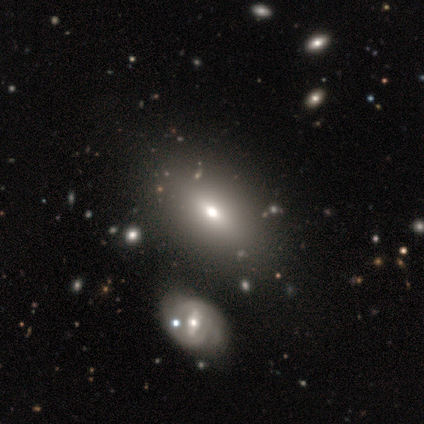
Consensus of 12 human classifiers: Volunteers were most divided on "smooth or featured": smooth: 67%, featured or disk: 25%, star or artifact: 8%. More confident: how rounded — in between (100%); merging — none (73%).